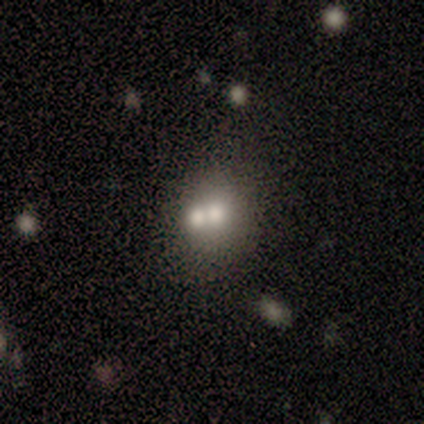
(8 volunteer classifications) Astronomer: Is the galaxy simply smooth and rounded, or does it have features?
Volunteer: smooth — 38%, tied with star or artifact at 38%.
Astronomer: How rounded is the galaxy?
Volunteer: in between — 67%.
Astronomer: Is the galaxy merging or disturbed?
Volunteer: merger — 60%.